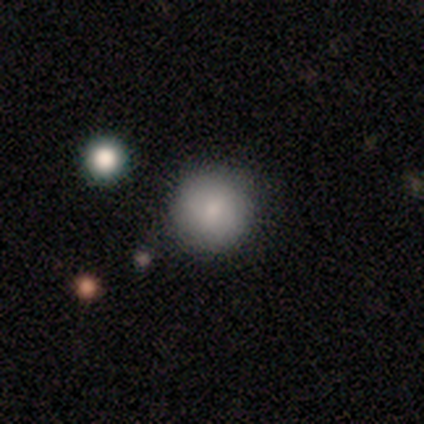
Overall: smooth (88%). How rounded: round (100%). Merging: none (76%).